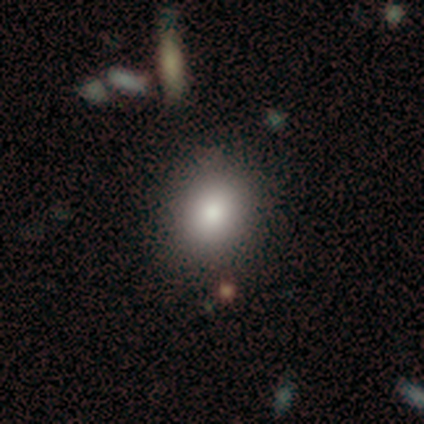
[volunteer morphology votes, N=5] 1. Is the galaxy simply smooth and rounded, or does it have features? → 100% smooth, 0% featured or disk, 0% star or artifact.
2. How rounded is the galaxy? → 60% round, 40% in between, 0% cigar-shaped.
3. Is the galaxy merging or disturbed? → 100% none, 0% minor disturbance, 0% major disturbance, 0% merger.